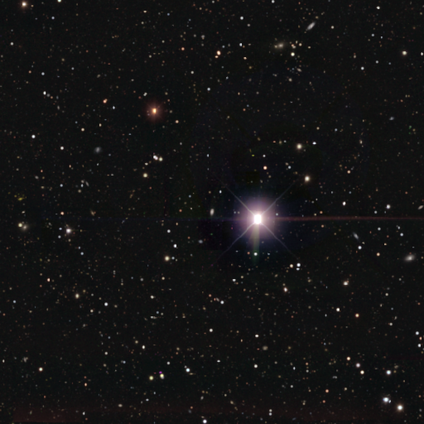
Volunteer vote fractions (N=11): This is likely a star or artifact rather than a galaxy (73%).